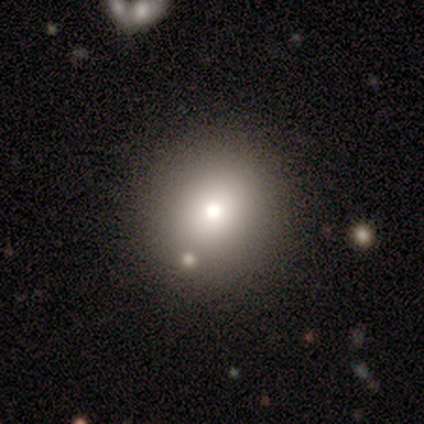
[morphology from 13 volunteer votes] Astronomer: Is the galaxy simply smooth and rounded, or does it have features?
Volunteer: smooth — 54% (runner-up: featured or disk, 38%).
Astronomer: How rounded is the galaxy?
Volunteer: round — 100%.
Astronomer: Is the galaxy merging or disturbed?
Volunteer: none — 100%.